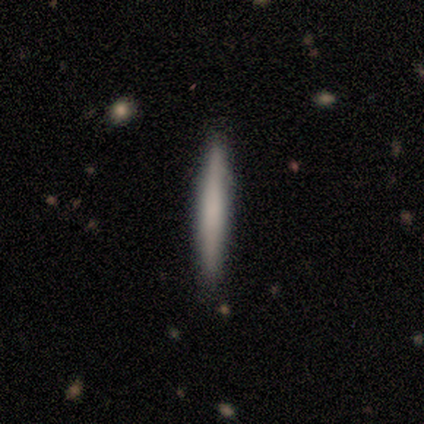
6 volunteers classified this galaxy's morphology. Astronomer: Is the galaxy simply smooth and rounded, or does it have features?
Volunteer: smooth — 83%.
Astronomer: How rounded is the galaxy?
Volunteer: cigar-shaped — 100%.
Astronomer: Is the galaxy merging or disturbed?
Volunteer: none — 100%.